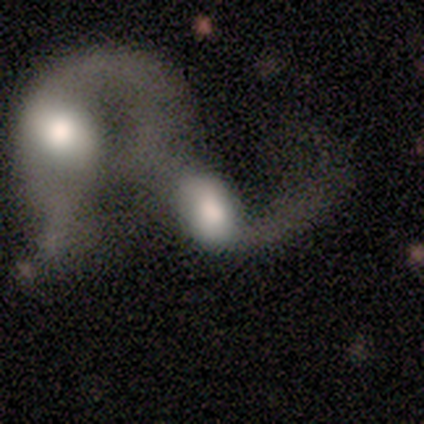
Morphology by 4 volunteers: This is likely a featured or disk galaxy (75%). It is clearly not viewed edge-on (100%). Bar: clearly no (100%). Spiral arm pattern: likely no (67%). Central bulge: likely dominant (67%). Merging: clearly merger (100%).